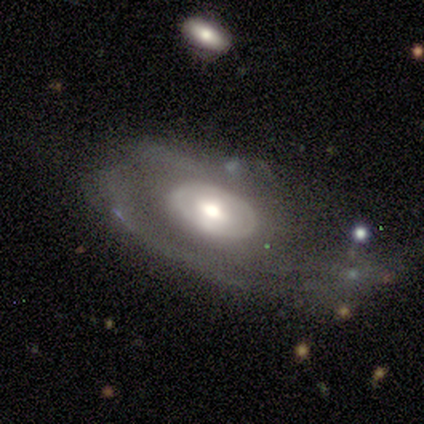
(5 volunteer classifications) This appears to be a featured or disk galaxy (60%) with no bar (100%), tight (100%) spiral arms (50%, tied with no) and a moderate central bulge (100%). Merging: none (60%).